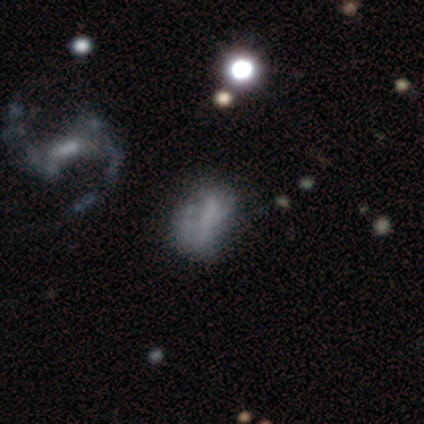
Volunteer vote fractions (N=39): A smooth galaxy with no disk features (41%, tied with featured or disk) that is in between round and cigar-shaped (88%).

Vote fractions:
- Smooth or featured? smooth: 41% (tied) / featured or disk: 41% (tied) / star or artifact: 18%
- How rounded? in between: 88% / round: 6% / cigar-shaped: 6%
- Merging? none: 59% / minor disturbance: 22% / major disturbance: 19% / merger: 0%